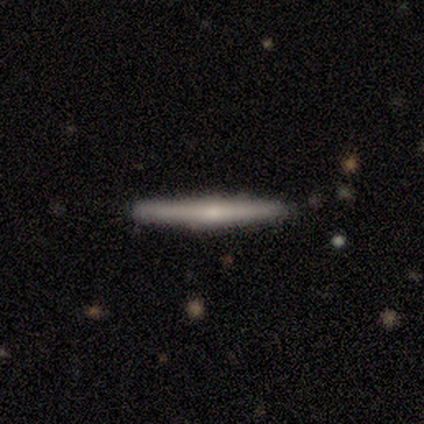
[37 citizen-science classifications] Smooth or featured? featured or disk (54%)
Edge-on disk? yes (95%)
Edge-on bulge? rounded (79%)
Merging? none (92%)